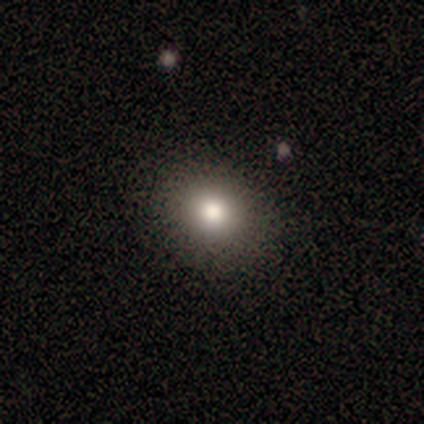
Morphology: type=smooth (100%); roundness=round (67%); merging=none (83%).